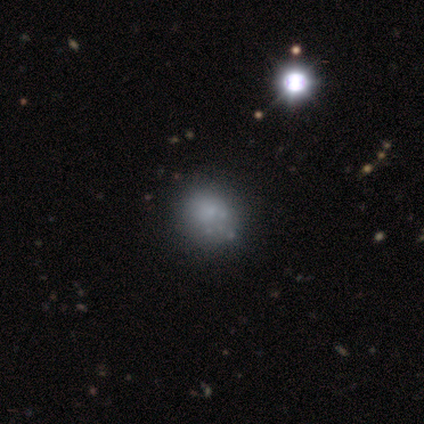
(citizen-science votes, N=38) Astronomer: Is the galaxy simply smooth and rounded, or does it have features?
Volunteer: smooth — 53% (runner-up: featured or disk, 32%).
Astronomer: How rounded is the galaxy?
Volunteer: round — 60% (runner-up: in between, 40%).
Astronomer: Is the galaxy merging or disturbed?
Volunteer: none — 44%.